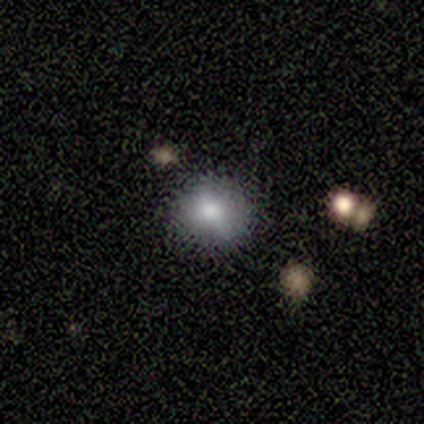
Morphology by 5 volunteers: A smooth galaxy with no disk features (60%) that is round (100%).

Vote fractions:
- Smooth or featured? smooth: 60% / star or artifact: 40% / featured or disk: 0%
- How rounded? round: 100% / in between: 0% / cigar-shaped: 0%
- Merging? none: 100% / minor disturbance: 0% / major disturbance: 0% / merger: 0%